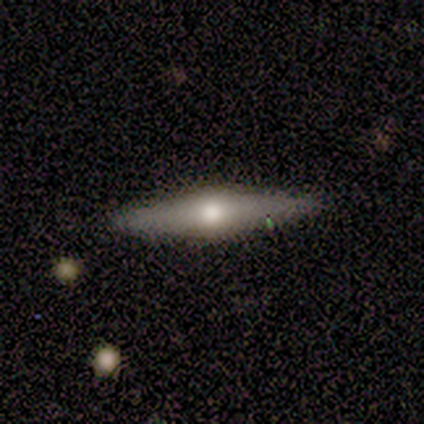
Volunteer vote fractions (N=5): smooth_or_featured: smooth (p=0.60) [alt: featured or disk p=0.20]
how_rounded: cigar-shaped (p=1.00)
merging: none (p=1.00)